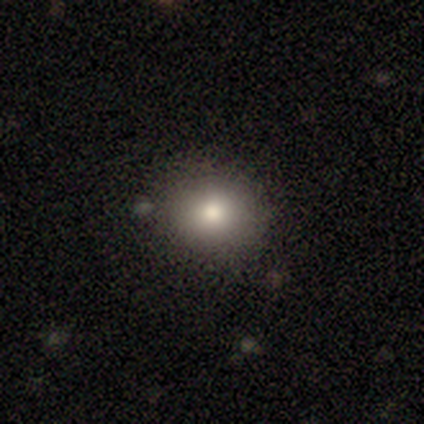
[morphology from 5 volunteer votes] Q: Smooth or featured?
A: smooth (60%); runner-up: featured or disk (20%)
Q: How rounded?
A: round (67%); runner-up: in between (33%)
Q: Merging?
A: none (100%)